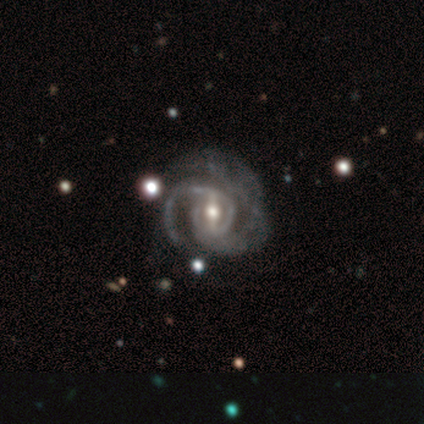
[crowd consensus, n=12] Morphology: type=featured or disk (100%); edge-on=no (100%); bar=strong (42%, tied with weak); spiral arms=yes (100%); winding=tight (50%); arm count=2 (75%); bulge=moderate (58%); merging=none (33%, tied with minor disturbance and major disturbance).